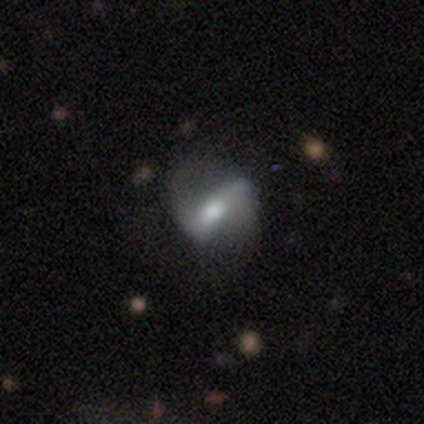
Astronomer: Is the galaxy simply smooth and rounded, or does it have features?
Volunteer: featured or disk — 80%.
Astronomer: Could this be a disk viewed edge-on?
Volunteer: no — 100%.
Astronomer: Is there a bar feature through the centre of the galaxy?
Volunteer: strong — 50%, tied with no at 50%.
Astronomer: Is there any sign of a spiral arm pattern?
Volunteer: yes — 50%, tied with no at 50%.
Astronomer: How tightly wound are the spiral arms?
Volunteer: loose — 100%.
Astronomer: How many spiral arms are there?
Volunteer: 2 — 100%.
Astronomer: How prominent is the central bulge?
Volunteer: moderate — 50%.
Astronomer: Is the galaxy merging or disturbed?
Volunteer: none — 75%.